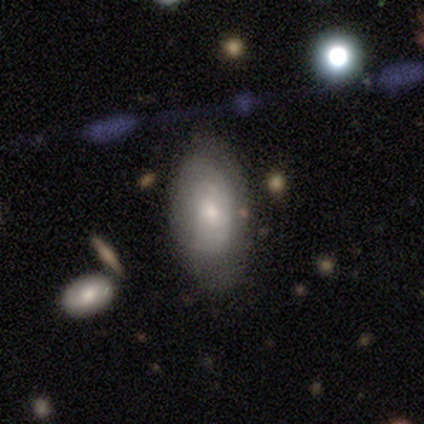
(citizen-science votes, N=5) Morphology: type=featured or disk (40%, tied with star or artifact); edge-on=no (100%); bar=no (100%); spiral arms=yes (50%, tied with no); winding=loose (100%); arm count=can't tell (100%); bulge=small (100%); merging=none (67%).